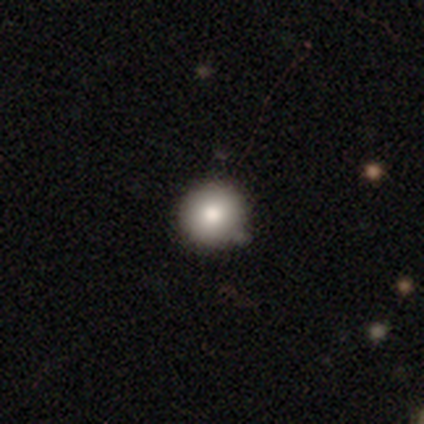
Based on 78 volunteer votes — A smooth galaxy with no disk features (92%) that is round (97%). Merging: none (42%).